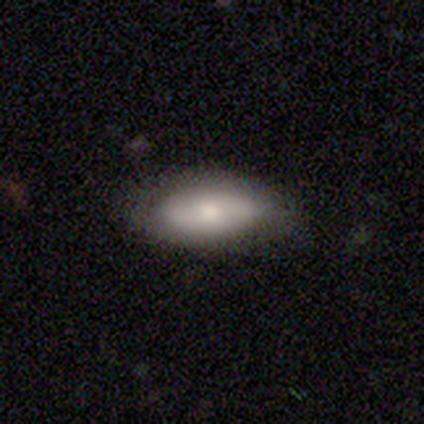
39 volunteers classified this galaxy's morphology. smooth_or_featured: smooth (p=0.72) [alt: featured or disk p=0.28]
how_rounded: in between (p=0.82) [alt: cigar-shaped p=0.14]
merging: none (p=0.79) [alt: minor disturbance p=0.15]